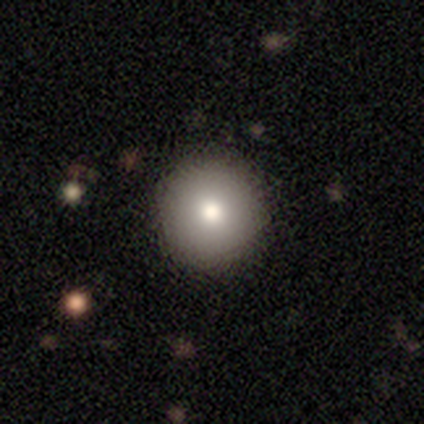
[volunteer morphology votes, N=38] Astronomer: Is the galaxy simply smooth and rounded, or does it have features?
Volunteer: smooth — 79%.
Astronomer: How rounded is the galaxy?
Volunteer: round — 93%.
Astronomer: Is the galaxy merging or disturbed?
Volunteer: none — 97%.